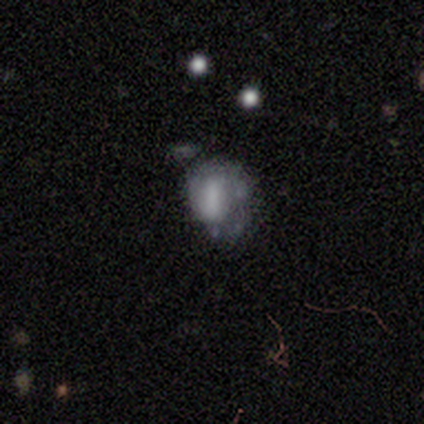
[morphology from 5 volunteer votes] smooth_or_featured: featured or disk (p=0.60) [alt: smooth p=0.20]
disk_edge_on: no (p=1.00)
bar: no (p=0.67) [alt: strong p=0.33]
has_spiral_arms: no (p=0.67) [alt: yes p=0.33]
bulge_size: none (p=0.67) [alt: moderate p=0.33]
merging: minor disturbance (p=0.50) [tied with: major disturbance p=0.50]